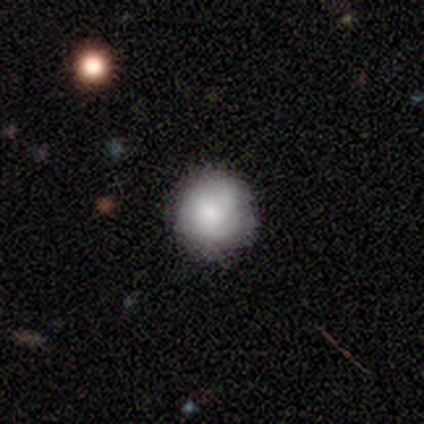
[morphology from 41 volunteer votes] type=smooth (73%); roundness=round (93%); merging=none (81%).